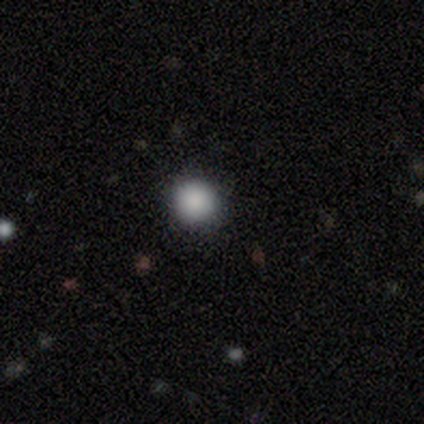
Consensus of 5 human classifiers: Smooth or featured? smooth (80%)
How rounded? round (100%)
Merging? none (50%, tied with minor disturbance)